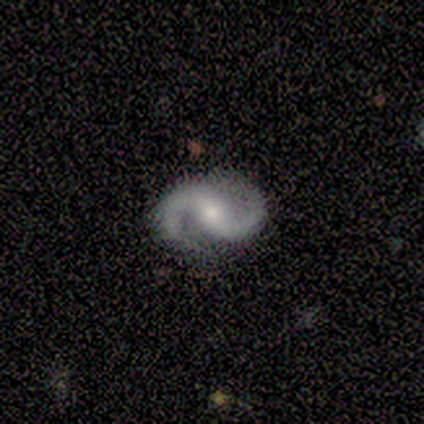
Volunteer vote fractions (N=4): smooth_or_featured: featured or disk (p=1.00)
disk_edge_on: no (p=1.00)
bar: weak (p=0.50) [alt: strong p=0.25]
has_spiral_arms: yes (p=1.00)
spiral_winding: loose (p=0.50) [alt: tight p=0.25]
spiral_arm_count: 2 (p=1.00)
bulge_size: moderate (p=1.00)
merging: none (p=0.75) [alt: minor disturbance p=0.25]